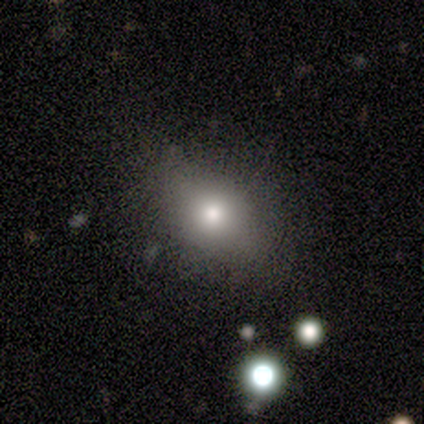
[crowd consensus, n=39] This is clearly a smooth galaxy (82%). How rounded: possibly in between (59%). Merging: clearly none (81%).